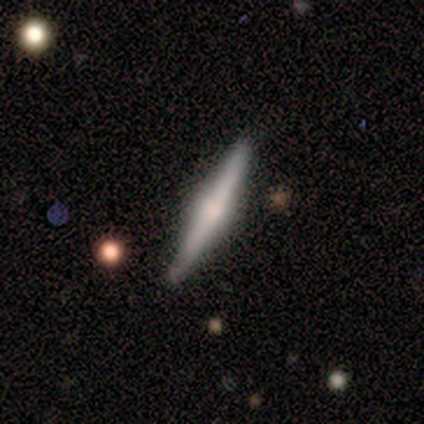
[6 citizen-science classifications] Smooth or featured? featured or disk (67%)
Edge-on disk? yes (100%)
Edge-on bulge? rounded (100%)
Merging? none (100%)